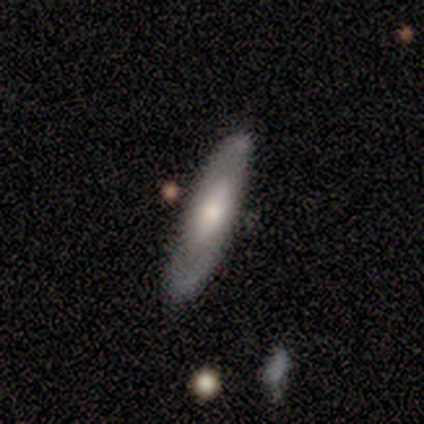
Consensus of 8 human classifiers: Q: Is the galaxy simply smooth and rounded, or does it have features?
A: smooth — 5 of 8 (62%).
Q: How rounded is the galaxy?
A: cigar-shaped — 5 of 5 (100%).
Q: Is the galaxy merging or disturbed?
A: none — 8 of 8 (100%).